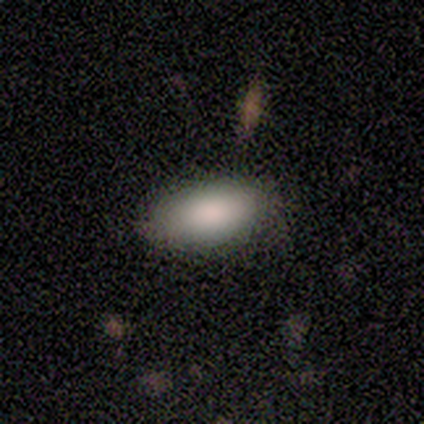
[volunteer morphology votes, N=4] type=smooth (100%); roundness=in between (100%); merging=none (100%).